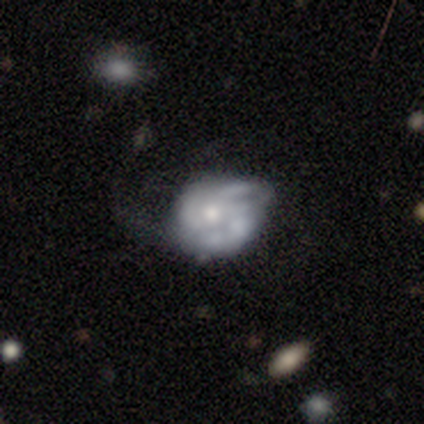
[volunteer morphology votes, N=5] Smooth or featured: featured or disk — 80% (smooth — 20%)
Edge-on disk: no — 100%
Bar: no — 75% (weak — 25%)
Spiral arms: yes — 50% (tied with no — 50%)
Spiral winding: tight — 100%
Spiral arm count: 3 — 50% (tied with can't tell — 50%)
Bulge size: moderate — 100%
Merging: major disturbance — 40% (none — 20%)